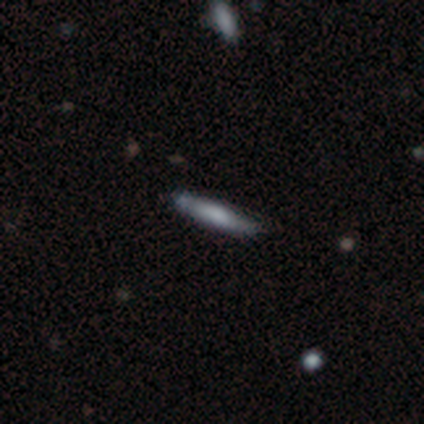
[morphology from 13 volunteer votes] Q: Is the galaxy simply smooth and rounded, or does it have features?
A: smooth — 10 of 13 (77%).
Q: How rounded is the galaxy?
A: cigar-shaped — 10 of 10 (100%).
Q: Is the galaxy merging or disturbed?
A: none — 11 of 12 (92%).